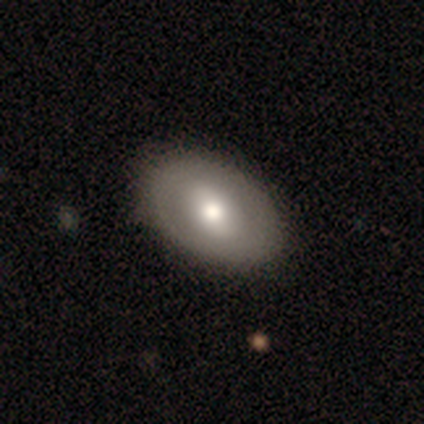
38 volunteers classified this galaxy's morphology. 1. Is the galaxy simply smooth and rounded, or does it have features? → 53% smooth, 45% featured or disk, 3% star or artifact.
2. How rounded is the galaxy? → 80% in between, 20% round, 0% cigar-shaped.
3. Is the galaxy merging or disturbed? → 70% none, 5% minor disturbance, 0% major disturbance, 0% merger.